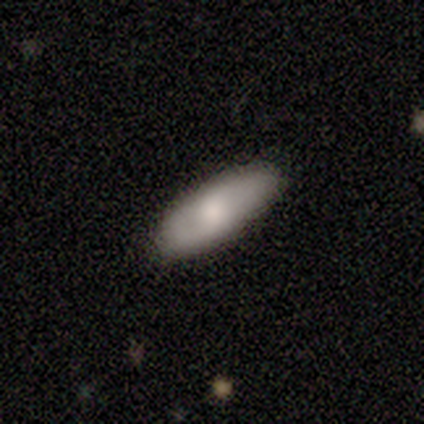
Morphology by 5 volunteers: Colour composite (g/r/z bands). It shows a smooth galaxy with no disk features (40%, tied with featured or disk) that is in between round and cigar-shaped (100%). Merging: none (75%).